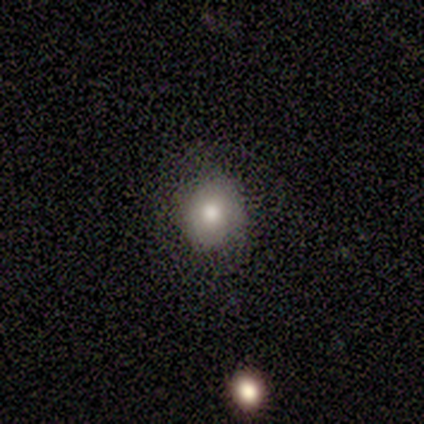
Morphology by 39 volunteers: smooth-or-featured: smooth: 87% | featured or disk: 8% | star or artifact: 5%
  how-rounded: round: 85% | in between: 15% | cigar-shaped: 0%
  merging: none: 76% | minor disturbance: 16% | major disturbance: 8% | merger: 0%